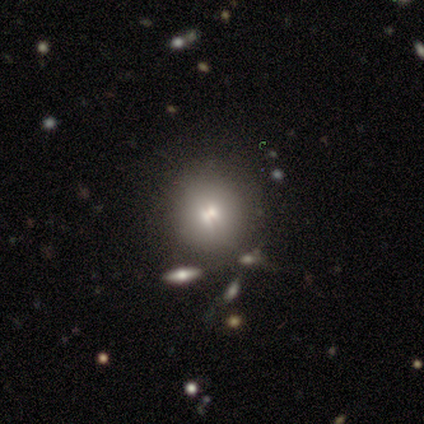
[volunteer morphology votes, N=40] Q: Smooth or featured?
A: smooth (65%); runner-up: star or artifact (20%)
Q: How rounded?
A: round (92%); runner-up: in between (4%)
Q: Merging?
A: none (72%); runner-up: minor disturbance (16%)